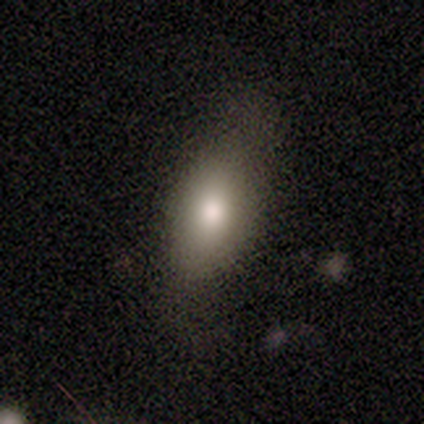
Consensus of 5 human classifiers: smooth_or_featured: smooth (p=0.40) [tied with: featured or disk p=0.40]
how_rounded: in between (p=1.00)
merging: minor disturbance (p=0.75) [alt: none p=0.25]